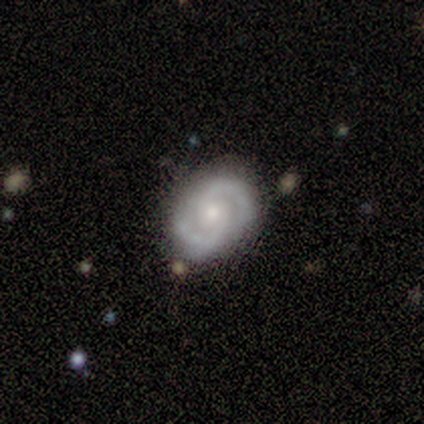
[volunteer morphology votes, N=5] Q: Smooth or featured?
A: featured or disk (100%)
Q: Edge-on disk?
A: no (100%)
Q: Bar?
A: weak (60%); runner-up: no (40%)
Q: Spiral arms?
A: yes (100%)
Q: Spiral winding?
A: medium (100%)
Q: Spiral arm count?
A: 2 (100%)
Q: Bulge size?
A: small (80%); runner-up: moderate (20%)
Q: Merging?
A: none (100%)